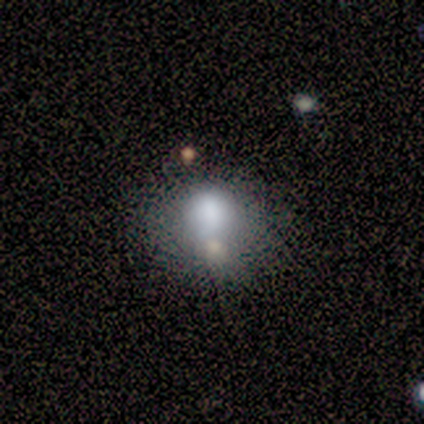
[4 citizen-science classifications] Smooth or featured?
  - smooth: 100% *
  - featured or disk: 0%
  - star or artifact: 0%
How rounded?
  - round: 50% * (tied)
  - in between: 50% * (tied)
  - cigar-shaped: 0%
Merging?
  - none: 75% *
  - merger: 25%
  - minor disturbance: 0%
  - major disturbance: 0%